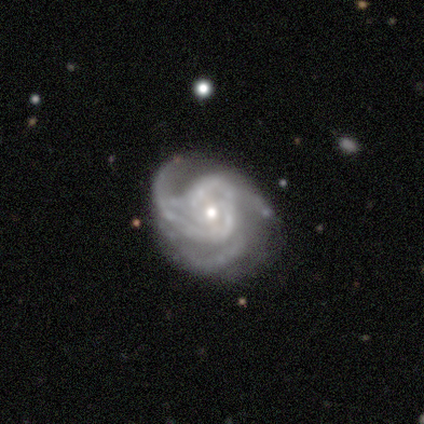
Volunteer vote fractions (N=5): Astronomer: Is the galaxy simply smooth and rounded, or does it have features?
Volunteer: featured or disk — 80%.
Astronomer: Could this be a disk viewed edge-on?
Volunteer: no — 100%.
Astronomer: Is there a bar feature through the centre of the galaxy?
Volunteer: no — 75%.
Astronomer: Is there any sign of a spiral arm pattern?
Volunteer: yes — 100%.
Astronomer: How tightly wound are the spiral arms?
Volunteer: loose — 50%.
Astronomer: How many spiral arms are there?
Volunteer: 3 — 75%.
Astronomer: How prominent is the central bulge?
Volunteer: small — 100%.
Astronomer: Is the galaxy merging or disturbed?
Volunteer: none — 75%.